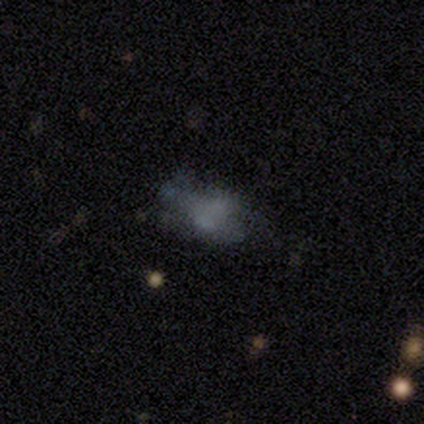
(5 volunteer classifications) Overall: featured or disk (40%, tied with star or artifact). Edge-on disk: no (100%). Bar: no (100%). Spiral arms: yes (50%, tied with no). Spiral arm count: can't tell (100%). Spiral winding: loose (100%). Bulge size: small (100%). Merging: major disturbance (67%; none 33%).